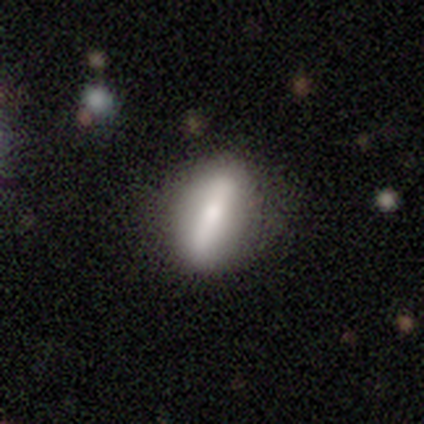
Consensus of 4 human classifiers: A smooth galaxy with no disk features (75%) that is cigar-shaped (67%). Merging: none (75%).